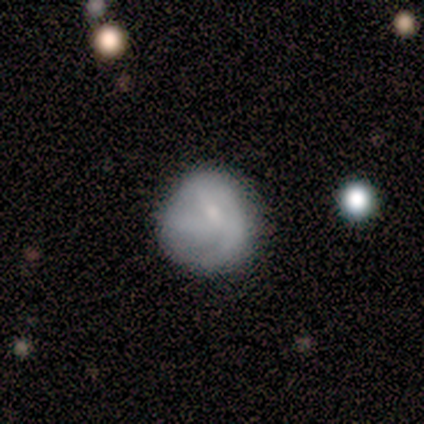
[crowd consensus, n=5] featured or disk 60%, smooth 40%, star or artifact 0%. Down the decision tree: edge-on disk — no (100%); bar — no (67%); spiral arms — yes (67%); spiral arm count — 1 (50%, tied with 3); spiral winding — medium (50%, tied with loose); bulge size — small (67%); merging — none (60%).